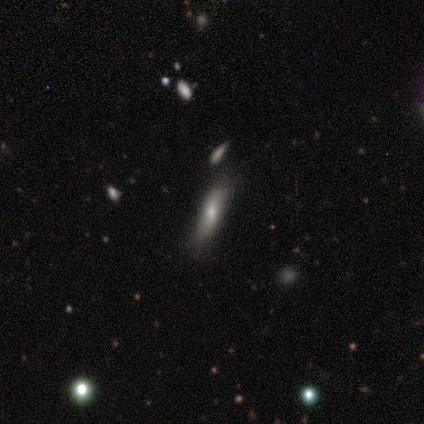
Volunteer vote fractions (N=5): Volunteers were most divided on "bulge size" (2-way tie): large: 50%, moderate: 50%, dominant: 0%, small: 0%, none: 0%. More confident: bar — no (100%); spiral arms — no (100%); merging — none (80%); edge-on disk — no (67%); smooth or featured — featured or disk (60%).